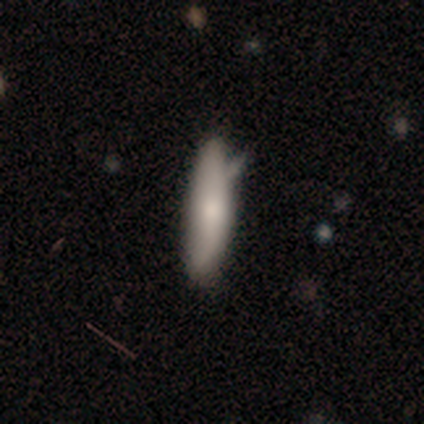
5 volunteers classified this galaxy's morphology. Smooth or featured? 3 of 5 (60%) said smooth. How rounded? 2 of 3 (67%) said in between. Merging? 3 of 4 (75%) said none.